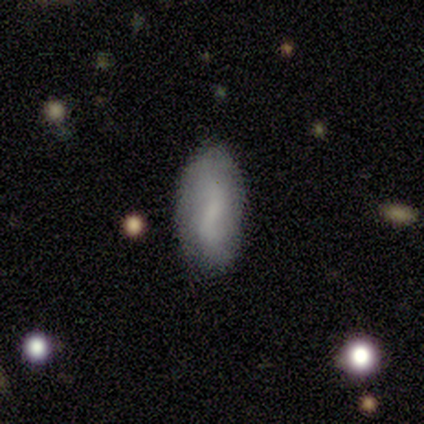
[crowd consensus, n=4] A smooth galaxy with no disk features (100%) that is in between round and cigar-shaped (100%).

Vote fractions:
- Smooth or featured? smooth: 100% / featured or disk: 0% / star or artifact: 0%
- How rounded? in between: 100% / round: 0% / cigar-shaped: 0%
- Merging? none: 100% / minor disturbance: 0% / major disturbance: 0% / merger: 0%